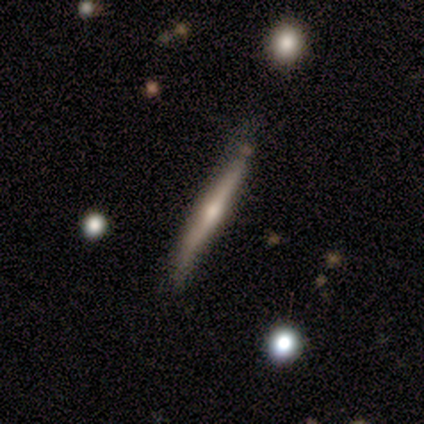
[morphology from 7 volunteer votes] This appears to be a featured or disk galaxy (71%) viewed edge-on (100%) with a rounded central bulge (80%). Merging: none (100%).